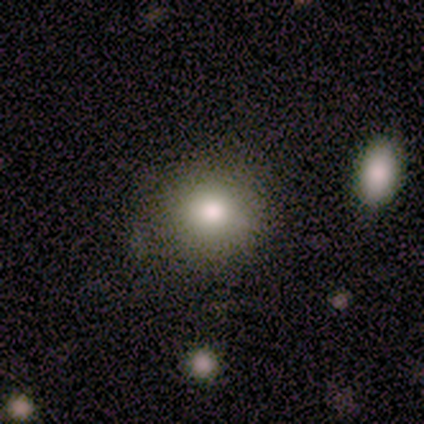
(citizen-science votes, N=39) This appears to be a smooth galaxy with no disk features (64%) that is round (88%). Merging: none (83%).